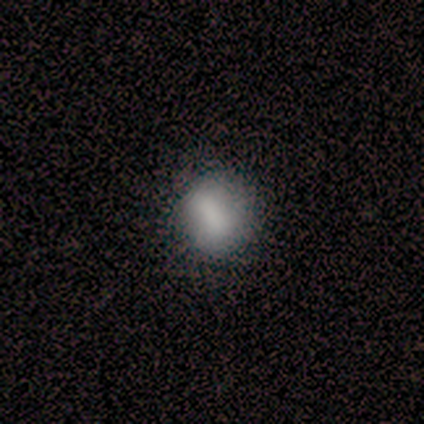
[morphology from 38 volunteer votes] Smooth or featured? 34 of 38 (89%) said smooth. How rounded? 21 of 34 (62%) said round. Merging? 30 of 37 (81%) said none.